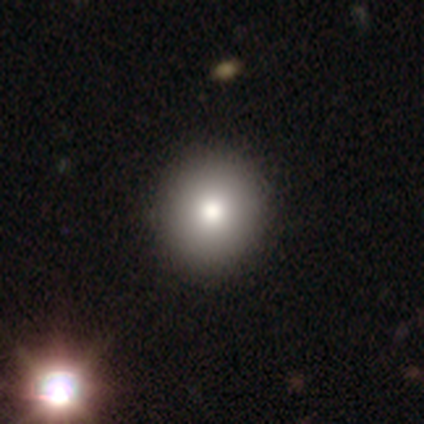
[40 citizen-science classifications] Smooth or featured?
  - smooth: 72% *
  - featured or disk: 15%
  - star or artifact: 12%
How rounded?
  - round: 86% *
  - in between: 14%
  - cigar-shaped: 0%
Merging?
  - none: 66% *
  - minor disturbance: 6%
  - merger: 3%
  - major disturbance: 0%